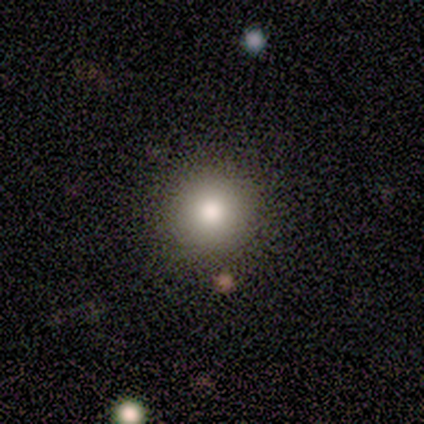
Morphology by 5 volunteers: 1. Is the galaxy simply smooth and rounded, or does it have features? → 80% smooth, 20% featured or disk, 0% star or artifact.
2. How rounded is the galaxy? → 100% round, 0% in between, 0% cigar-shaped.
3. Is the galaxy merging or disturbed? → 100% none, 0% minor disturbance, 0% major disturbance, 0% merger.